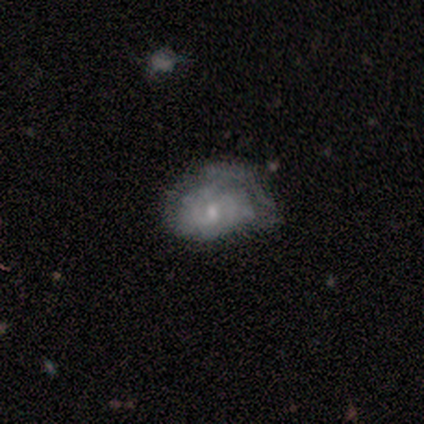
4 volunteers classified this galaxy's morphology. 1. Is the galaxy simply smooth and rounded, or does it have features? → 50% smooth (tied), 50% featured or disk (tied), 0% star or artifact.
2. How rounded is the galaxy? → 100% in between, 0% round, 0% cigar-shaped.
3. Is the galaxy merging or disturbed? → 50% major disturbance, 25% none, 25% minor disturbance, 0% merger.